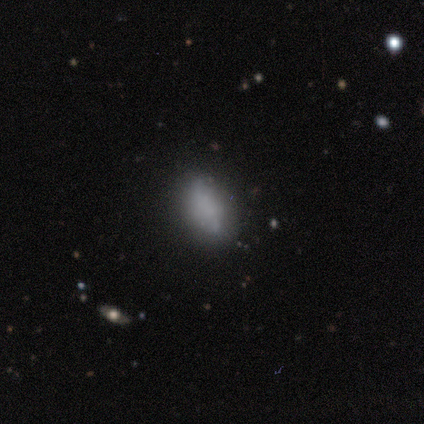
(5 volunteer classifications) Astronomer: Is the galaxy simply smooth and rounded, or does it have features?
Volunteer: smooth — 100%.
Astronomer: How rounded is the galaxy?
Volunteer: in between — 100%.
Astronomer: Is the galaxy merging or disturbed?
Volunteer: none — 60%.